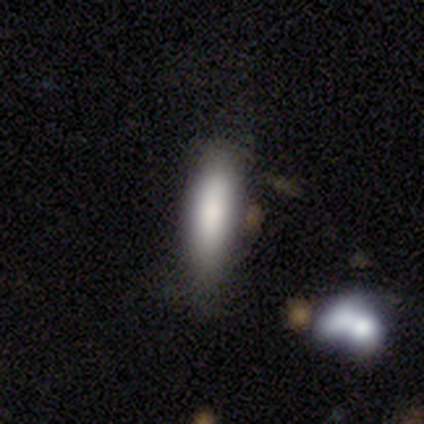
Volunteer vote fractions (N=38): This is clearly a smooth galaxy (82%). How rounded: likely cigar-shaped (65%). Merging: likely none (76%).